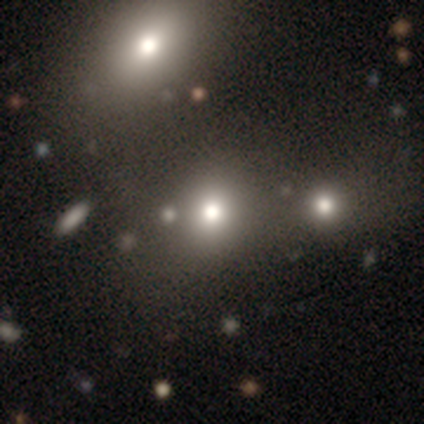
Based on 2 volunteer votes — Smooth or featured: smooth — 50% (tied with featured or disk — 50%)
How rounded: round — 100%
Merging: none — 50% (tied with minor disturbance — 50%)